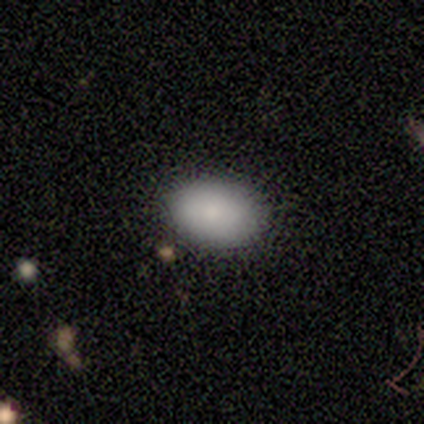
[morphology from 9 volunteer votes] Smooth or featured: smooth — 89% (star or artifact — 11%)
How rounded: in between — 100%
Merging: none — 100%